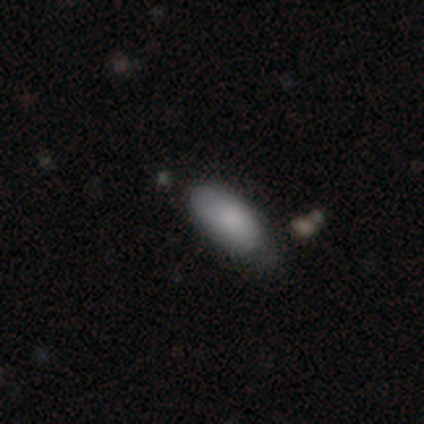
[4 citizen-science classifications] Smooth or featured? smooth (75%)
How rounded? in between (100%)
Merging? none (67%)